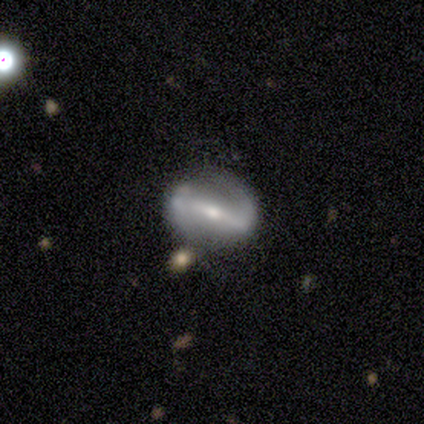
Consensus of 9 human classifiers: Overall: featured or disk (67%; smooth 33%). Edge-on disk: no (100%). Bar: strong (67%; weak 33%). Spiral arms: yes (83%). Spiral arm count: 2 (100%). Spiral winding: medium (40%, tied with loose). Bulge size: small (100%). Merging: none (89%).